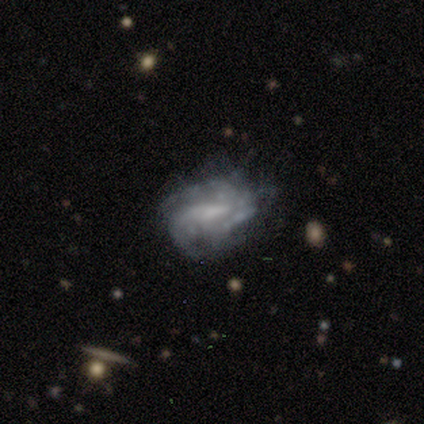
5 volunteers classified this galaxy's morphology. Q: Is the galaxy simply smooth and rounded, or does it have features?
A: featured or disk — 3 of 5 (60%).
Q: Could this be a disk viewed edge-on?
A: no — 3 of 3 (100%).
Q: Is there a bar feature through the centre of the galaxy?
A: weak — 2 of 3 (67%).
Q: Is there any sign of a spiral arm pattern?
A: yes — 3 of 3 (100%).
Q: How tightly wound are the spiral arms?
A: tight — 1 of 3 (33%, tied with medium and loose).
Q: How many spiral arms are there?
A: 1 — 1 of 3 (33%, tied with 4 and can't tell).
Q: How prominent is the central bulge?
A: none — 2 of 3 (67%).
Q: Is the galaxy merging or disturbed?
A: major disturbance — 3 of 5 (60%).